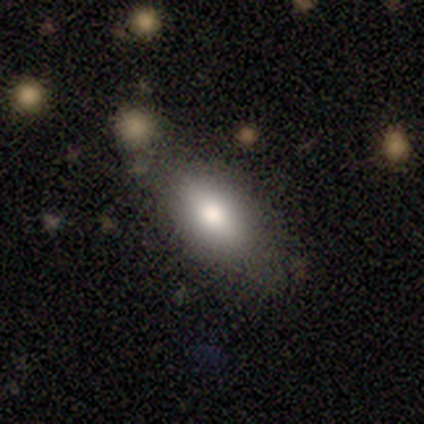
A smooth galaxy with no disk features (100%) that is in between round and cigar-shaped (80%).

Vote fractions:
- Smooth or featured? smooth: 100% / featured or disk: 0% / star or artifact: 0%
- How rounded? in between: 80% / cigar-shaped: 20% / round: 0%
- Merging? none: 80% / minor disturbance: 20% / major disturbance: 0% / merger: 0%